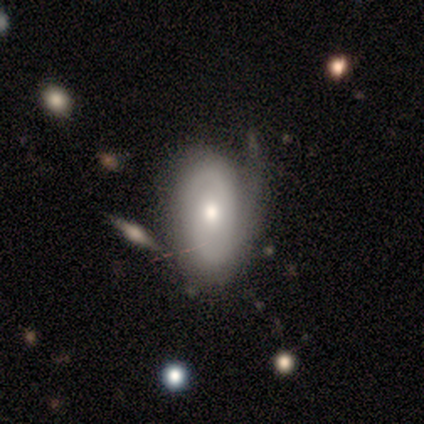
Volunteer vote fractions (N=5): Smooth or featured: featured or disk — 60% (smooth — 40%)
Edge-on disk: no — 100%
Bar: no — 100%
Spiral arms: yes — 67% (no — 33%)
Spiral winding: tight — 50% (tied with loose — 50%)
Spiral arm count: 1 — 50% (tied with can't tell — 50%)
Bulge size: moderate — 100%
Merging: minor disturbance — 80% (major disturbance — 20%)